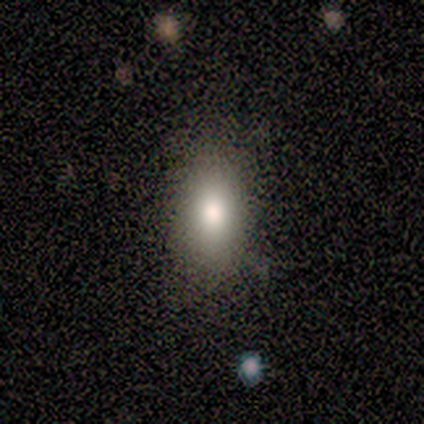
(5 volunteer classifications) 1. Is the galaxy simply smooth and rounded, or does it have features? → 80% smooth, 20% star or artifact, 0% featured or disk.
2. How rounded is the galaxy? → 100% in between, 0% round, 0% cigar-shaped.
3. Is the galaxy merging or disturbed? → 75% none, 25% minor disturbance, 0% major disturbance, 0% merger.